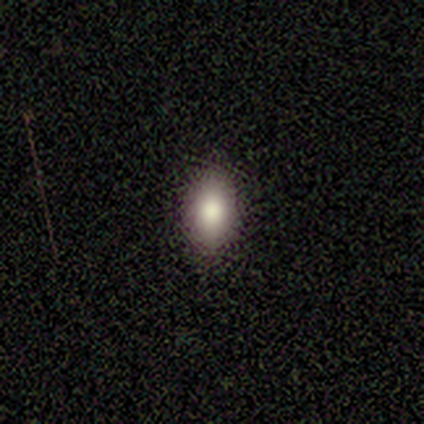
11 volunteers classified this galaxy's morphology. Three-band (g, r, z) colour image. It shows a smooth galaxy with no disk features (100%) that is in between round and cigar-shaped (100%). Merging: none (91%).